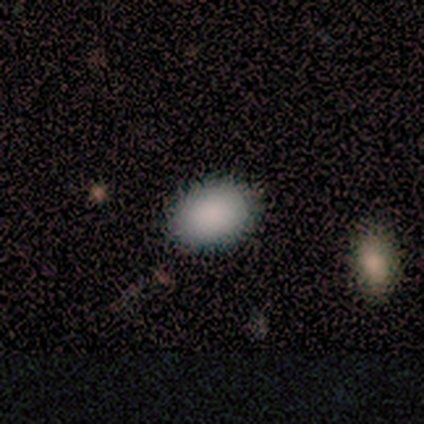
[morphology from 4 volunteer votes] Smooth or featured: smooth — 100%
How rounded: round — 50% (tied with in between — 50%)
Merging: none — 75% (minor disturbance — 25%)